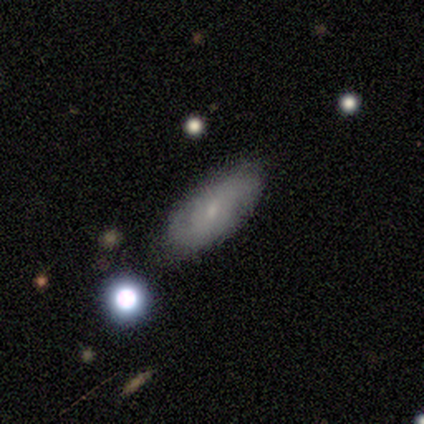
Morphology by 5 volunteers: smooth_or_featured: featured or disk (p=0.40) [tied with: star or artifact p=0.40]
disk_edge_on: no (p=1.00)
bar: no (p=1.00)
has_spiral_arms: yes (p=0.50) [tied with: no p=0.50]
spiral_winding: loose (p=1.00)
spiral_arm_count: 2 (p=1.00)
bulge_size: small (p=1.00)
merging: minor disturbance (p=0.67) [alt: none p=0.33]